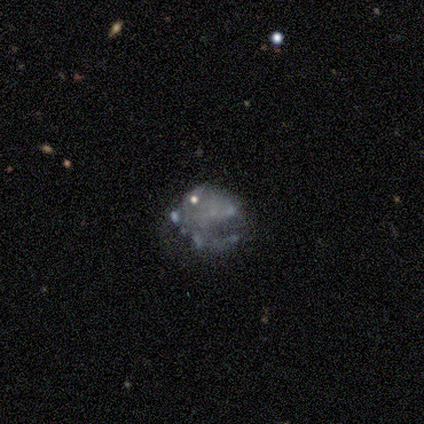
Smooth or featured? 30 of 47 (64%) said featured or disk. Edge-on disk? 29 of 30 (97%) said no. Bar? 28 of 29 (97%) said no. Spiral arms? 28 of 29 (97%) said no. Bulge size? 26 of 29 (90%) said none. Merging? 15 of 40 (38%) said minor disturbance.